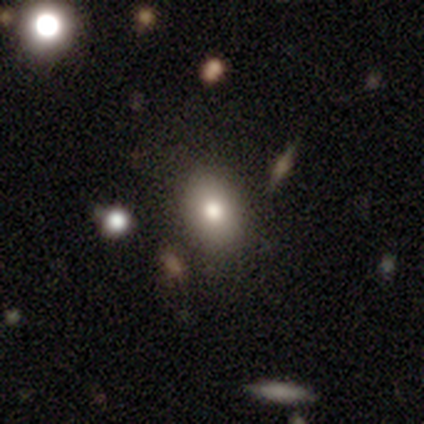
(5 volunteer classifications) Q: Smooth or featured?
A: smooth (60%); runner-up: featured or disk (20%)
Q: How rounded?
A: in between (67%); runner-up: round (33%)
Q: Merging?
A: none (100%)